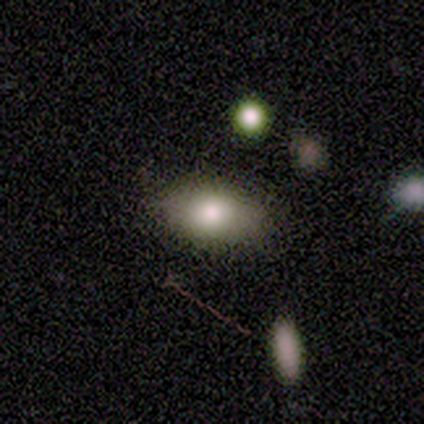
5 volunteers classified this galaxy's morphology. Smooth or featured? smooth (80%)
How rounded? in between (100%)
Merging? none (75%)